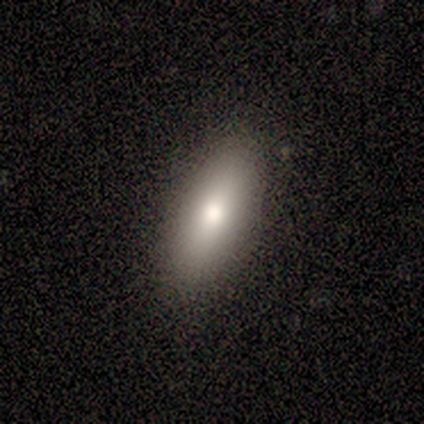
Overall: smooth (100%). How rounded: in between (60%; round 20%). Merging: none (100%).